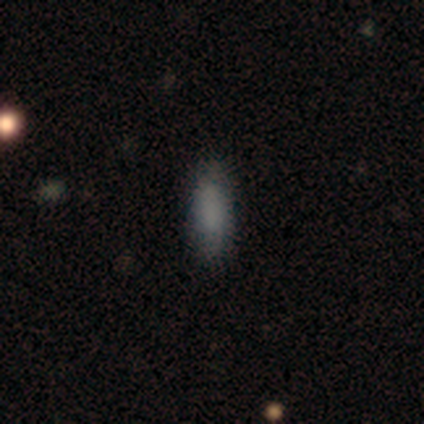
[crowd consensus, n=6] A smooth galaxy with no disk features (83%) that is cigar-shaped (80%). Merging: none (100%).